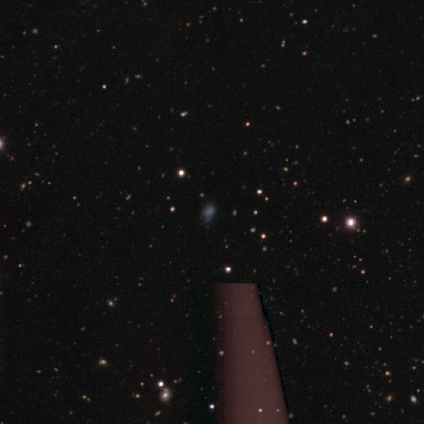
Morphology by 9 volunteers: Smooth or featured? 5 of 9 (56%) said star or artifact.